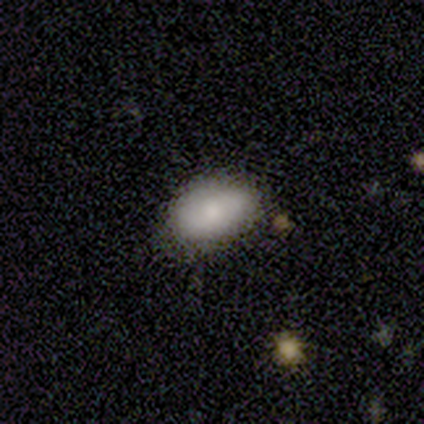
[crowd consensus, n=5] Overall: smooth (100%). How rounded: in between (100%). Merging: none (60%; minor disturbance 40%).